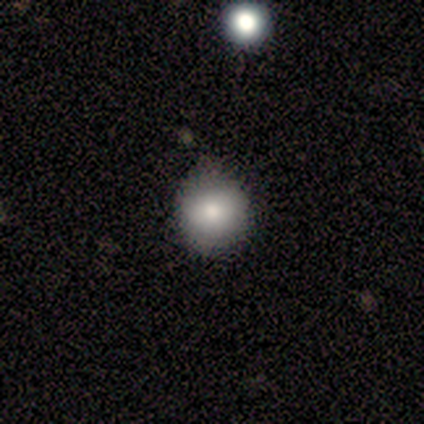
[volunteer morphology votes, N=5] Smooth or featured? 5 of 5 (100%) said smooth. How rounded? 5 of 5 (100%) said round. Merging? 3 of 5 (60%) said minor disturbance.